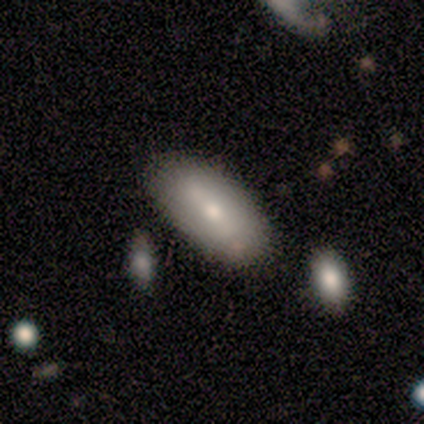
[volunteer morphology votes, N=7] Smooth or featured? smooth (71%)
How rounded? in between (100%)
Merging? none (71%)